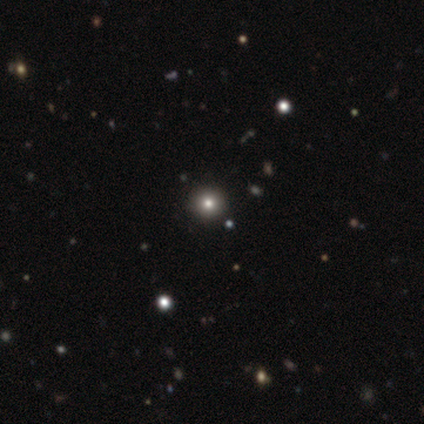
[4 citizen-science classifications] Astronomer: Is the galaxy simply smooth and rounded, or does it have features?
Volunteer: smooth — 75%.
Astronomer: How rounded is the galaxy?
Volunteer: round — 100%.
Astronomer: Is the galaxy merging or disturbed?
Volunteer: none — 100%.